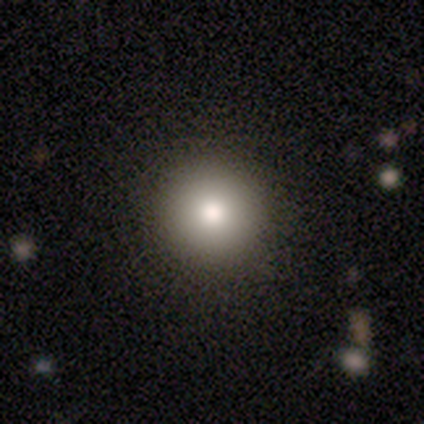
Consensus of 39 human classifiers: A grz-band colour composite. It shows a smooth galaxy with no disk features (82%) that is round (97%). Merging: none (51%).